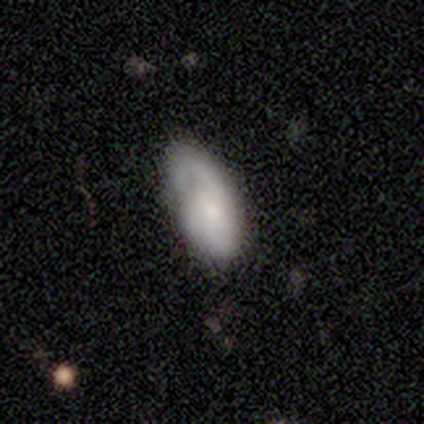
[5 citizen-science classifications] This appears to be a smooth galaxy with no disk features (100%) that is in between round and cigar-shaped (100%). Merging: none (40%, tied with minor disturbance).